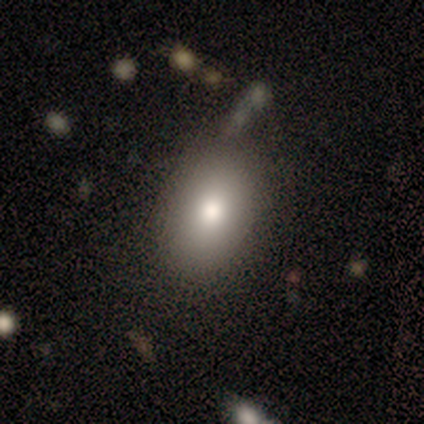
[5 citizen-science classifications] smooth_or_featured: smooth (p=1.00)
how_rounded: in between (p=0.60) [alt: round p=0.40]
merging: none (p=1.00)